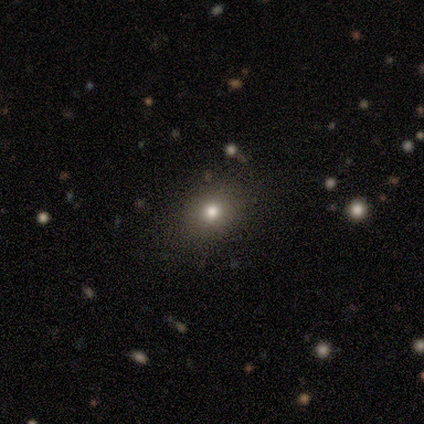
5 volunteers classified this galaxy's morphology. Overall: smooth (60%; featured or disk 40%). How rounded: in between (67%; round 33%). Merging: none (80%).